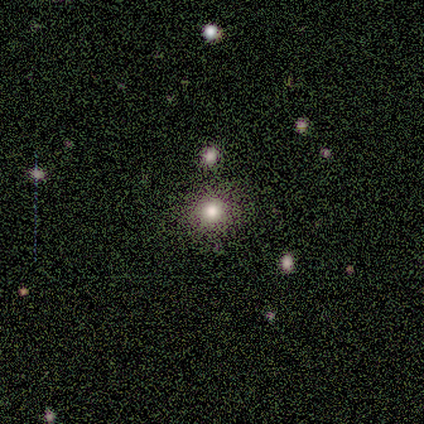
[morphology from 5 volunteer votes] Smooth or featured: smooth — 60% (featured or disk — 20%)
How rounded: round — 67% (cigar-shaped — 33%)
Merging: none — 50% (minor disturbance — 25%)